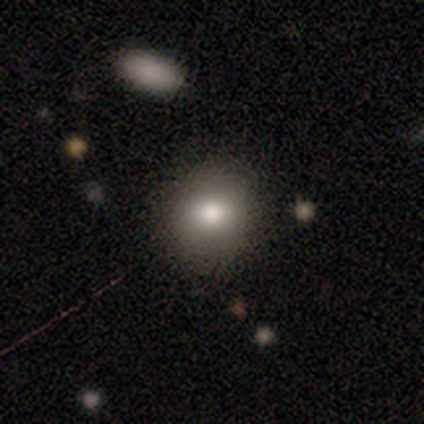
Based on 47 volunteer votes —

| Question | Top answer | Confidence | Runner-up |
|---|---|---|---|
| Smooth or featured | smooth | 83% | star or artifact (11%) |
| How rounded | round | 87% | in between (13%) |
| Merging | none | 86% | minor disturbance (10%) |